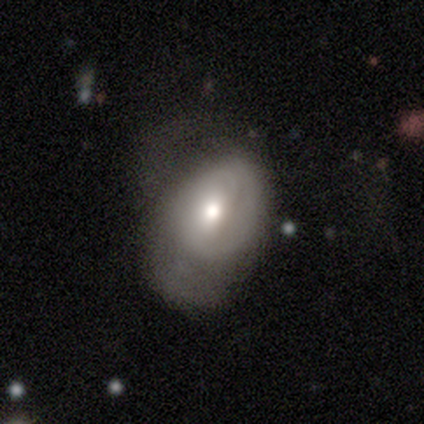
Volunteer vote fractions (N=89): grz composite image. It shows a smooth galaxy with no disk features (54%) that is in between round and cigar-shaped (81%). Merging: major disturbance (40%).